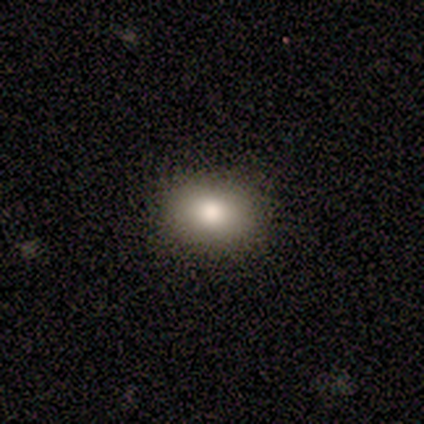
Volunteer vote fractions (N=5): smooth_or_featured: smooth (p=0.80) [alt: star or artifact p=0.20]
how_rounded: in between (p=0.75) [alt: round p=0.25]
merging: none (p=1.00)